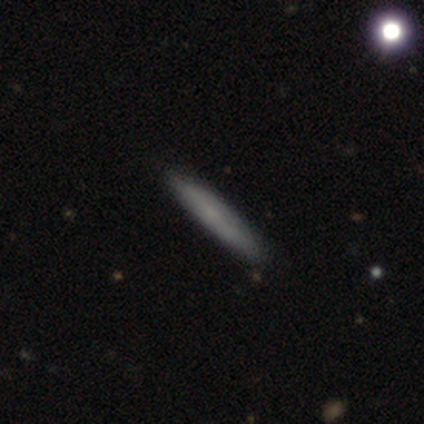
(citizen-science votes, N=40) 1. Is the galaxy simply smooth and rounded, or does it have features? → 70% smooth, 22% featured or disk, 8% star or artifact.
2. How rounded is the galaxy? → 96% cigar-shaped, 4% in between, 0% round.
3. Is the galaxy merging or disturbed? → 84% none, 14% minor disturbance, 3% merger, 0% major disturbance.